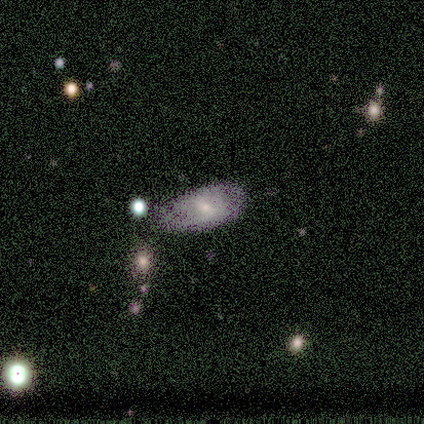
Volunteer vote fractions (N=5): Smooth or featured? smooth (80%)
How rounded? in between (100%)
Merging? none (40%, tied with minor disturbance)